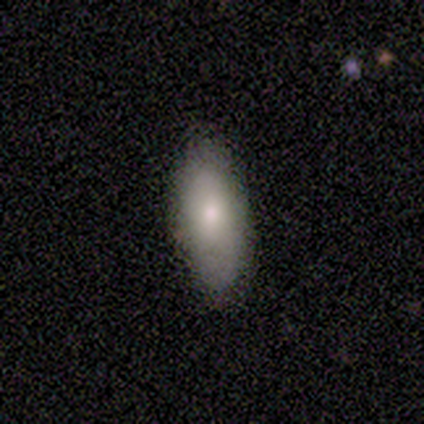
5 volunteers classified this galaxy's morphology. Smooth or featured? smooth (60%)
How rounded? in between (100%)
Merging? none (100%)